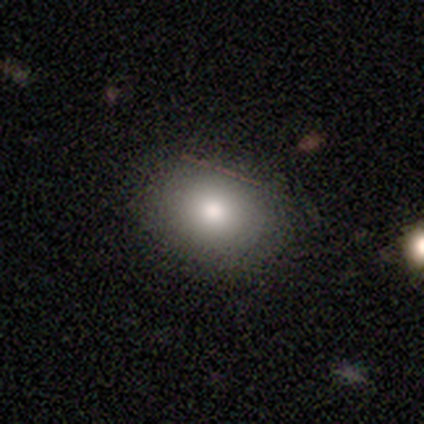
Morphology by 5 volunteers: smooth_or_featured: smooth (p=1.00)
how_rounded: in between (p=0.60) [alt: round p=0.40]
merging: none (p=1.00)